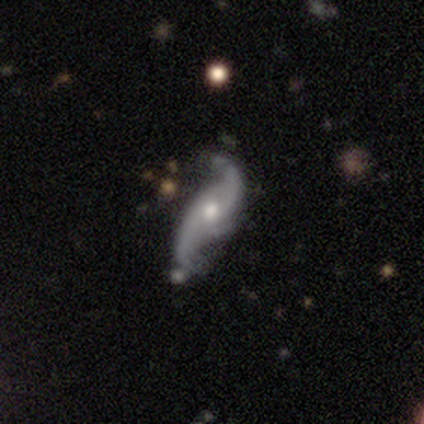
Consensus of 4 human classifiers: Smooth or featured: featured or disk — 100%
Edge-on disk: no — 100%
Bar: weak — 50% (tied with no — 50%)
Spiral arms: yes — 100%
Spiral winding: loose — 100%
Spiral arm count: 2 — 100%
Bulge size: moderate — 50% (large — 25%)
Merging: none — 75% (minor disturbance — 25%)